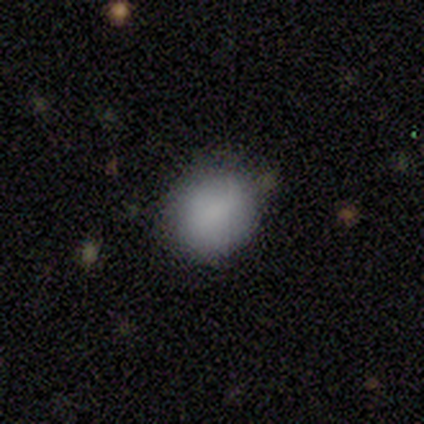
Overall: smooth (80%). How rounded: round (75%). Merging: none (60%; major disturbance 40%).